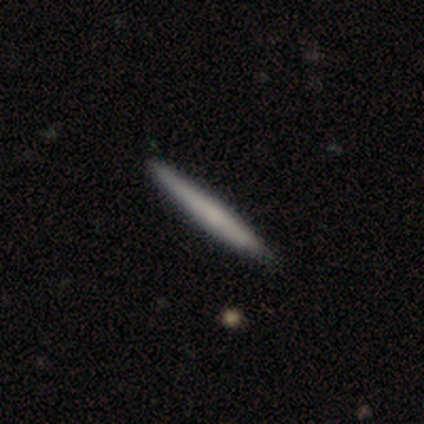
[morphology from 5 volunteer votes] smooth-or-featured: smooth: 60% | featured or disk: 40% | star or artifact: 0%
  how-rounded: cigar-shaped: 100% | round: 0% | in between: 0%
  merging: none: 80% | minor disturbance: 20% | major disturbance: 0% | merger: 0%